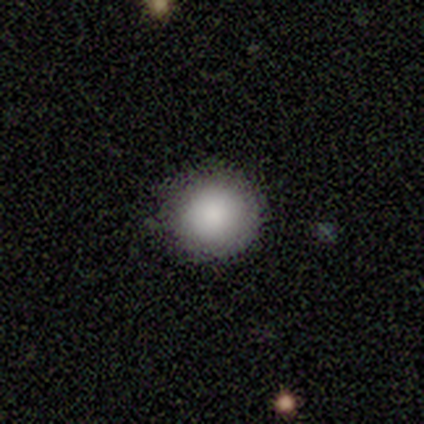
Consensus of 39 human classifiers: Volunteers were most divided on "merging": none: 86%, minor disturbance: 14%, major disturbance: 0%, merger: 0%. More confident: how rounded — round (97%); smooth or featured — smooth (95%).